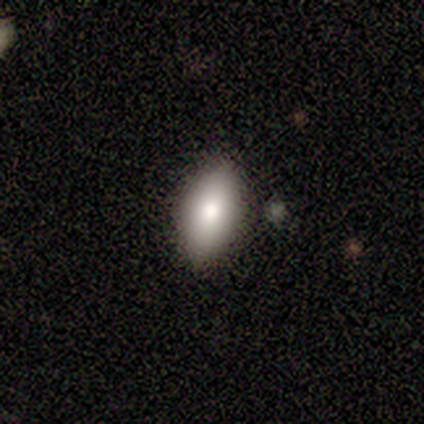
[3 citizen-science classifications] This is marginally a smooth galaxy (33%, tied with featured or disk and star or artifact). How rounded: clearly in between (100%). Merging: clearly none (100%).